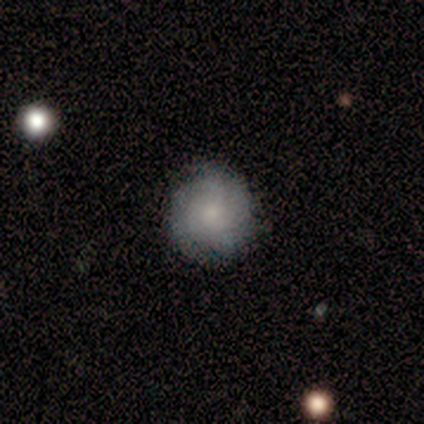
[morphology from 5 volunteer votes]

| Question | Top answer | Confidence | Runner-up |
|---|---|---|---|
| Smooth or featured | smooth | 60% | featured or disk (20%) |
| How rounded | round | 100% | — |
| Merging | none | 100% | — |